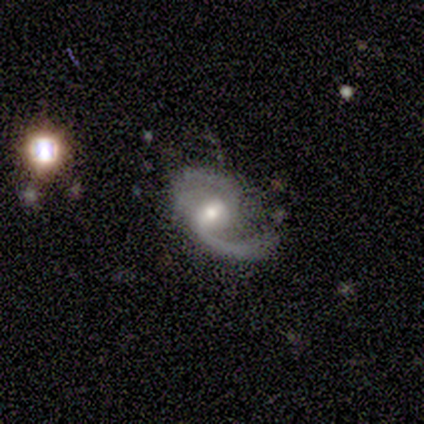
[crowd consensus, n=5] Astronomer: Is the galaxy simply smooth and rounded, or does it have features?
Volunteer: featured or disk — 100%.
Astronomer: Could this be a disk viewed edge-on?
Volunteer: no — 100%.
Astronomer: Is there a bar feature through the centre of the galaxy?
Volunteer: weak — 40%, tied with no at 40%.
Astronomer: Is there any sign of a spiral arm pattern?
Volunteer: yes — 100%.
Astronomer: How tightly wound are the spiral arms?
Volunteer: loose — 80%.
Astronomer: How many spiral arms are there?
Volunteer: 2 — 60%.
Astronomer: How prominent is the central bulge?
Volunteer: moderate — 60%.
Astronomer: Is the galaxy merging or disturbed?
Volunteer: minor disturbance — 60% (runner-up: none, 40%).